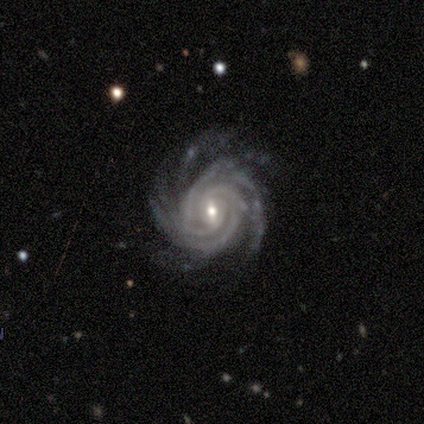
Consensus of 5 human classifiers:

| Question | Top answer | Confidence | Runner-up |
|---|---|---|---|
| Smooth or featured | featured or disk | 100% | — |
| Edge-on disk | no | 100% | — |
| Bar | weak | 100% | — |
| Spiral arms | yes | 100% | — |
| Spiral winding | tight | 60% | medium (40%) |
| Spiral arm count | more than 4 | 60% | 4 (20%) |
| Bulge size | small | 80% | moderate (20%) |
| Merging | none | 60% | minor disturbance (20%) |